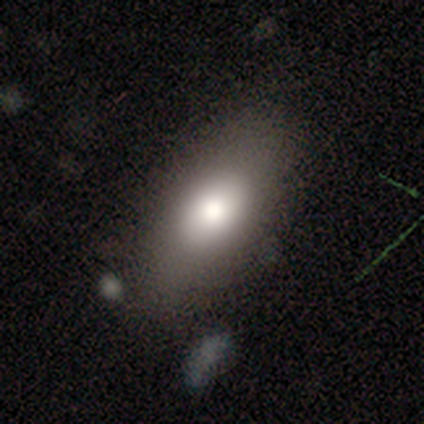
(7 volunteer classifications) smooth-or-featured: smooth: 86% | featured or disk: 14% | star or artifact: 0%
  how-rounded: in between: 100% | round: 0% | cigar-shaped: 0%
  merging: none: 71% | minor disturbance: 29% | major disturbance: 0% | merger: 0%